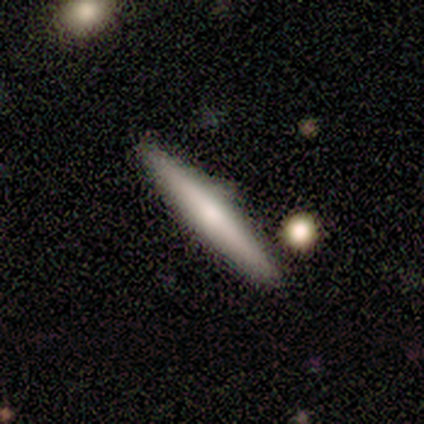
A featured or disk galaxy (75%) viewed edge-on (100%) with a rounded central bulge (67%).

Vote fractions:
- Smooth or featured? featured or disk: 75% / smooth: 25% / star or artifact: 0%
- Edge-on disk? yes: 100% / no: 0%
- Edge-on bulge? rounded: 67% / none: 33% / boxy: 0%
- Merging? none: 75% / merger: 25% / minor disturbance: 0% / major disturbance: 0%